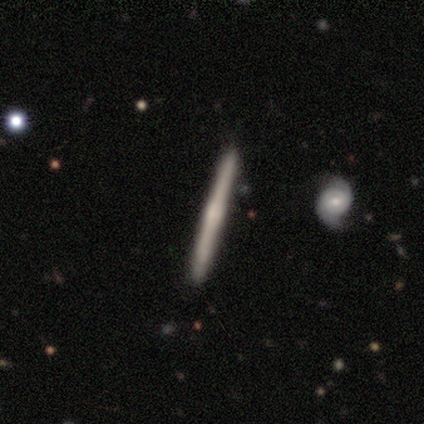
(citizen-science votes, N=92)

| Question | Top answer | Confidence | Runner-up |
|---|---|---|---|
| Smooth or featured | featured or disk | 68% | smooth (30%) |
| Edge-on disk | yes | 100% | — |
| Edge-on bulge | rounded | 49% | none (35%) |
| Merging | none | 93% | minor disturbance (5%) |